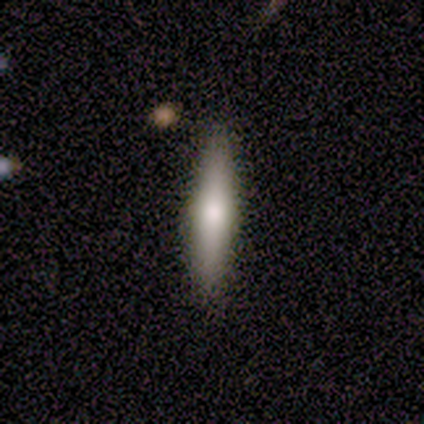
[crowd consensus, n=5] Morphology: type=smooth (80%); roundness=cigar-shaped (75%); merging=none (80%).